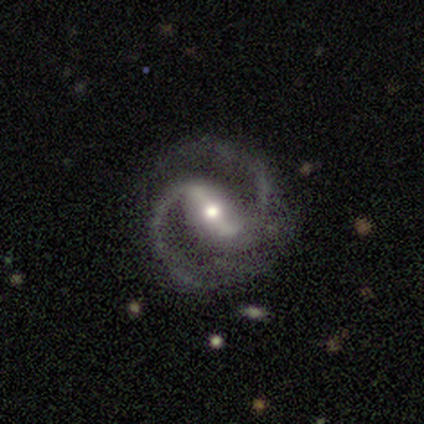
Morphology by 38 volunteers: type=featured or disk (95%); edge-on=no (97%); bar=strong (63%); spiral arms=yes (100%); winding=medium (80%); arm count=2 (97%); bulge=moderate (66%); merging=none (75%).